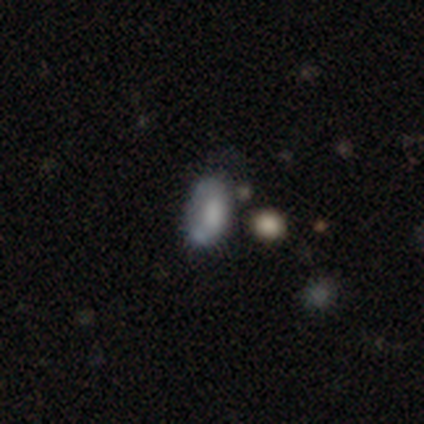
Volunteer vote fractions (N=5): Volunteers were most divided on "merging" (2-way tie): minor disturbance: 40%, major disturbance: 40%, none: 20%, merger: 0%. More confident: how rounded — in between (100%); smooth or featured — smooth (60%).